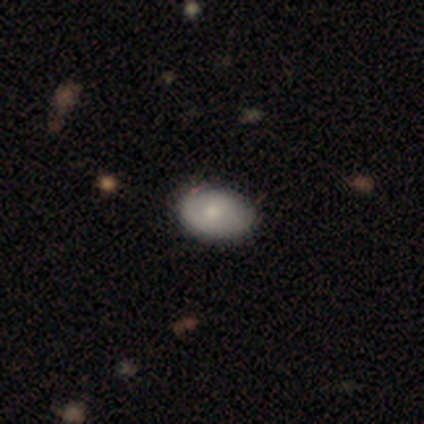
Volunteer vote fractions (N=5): Smooth or featured? 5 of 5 (100%) said smooth. How rounded? 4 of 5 (80%) said in between. Merging? 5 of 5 (100%) said none.